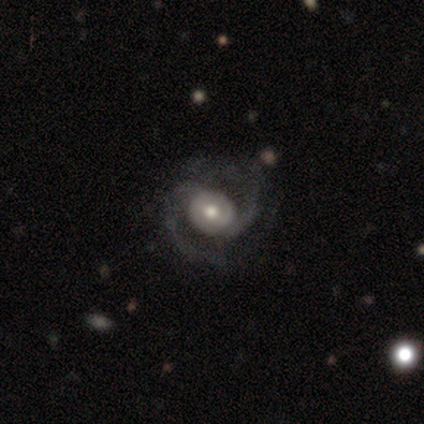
Smooth or featured?
  - featured or disk: 100% *
  - smooth: 0%
  - star or artifact: 0%
Edge-on disk?
  - no: 100% *
  - yes: 0%
Bar?
  - strong: 50% * (tied)
  - no: 50% * (tied)
  - weak: 0%
Spiral arms?
  - yes: 75% *
  - no: 25%
Spiral winding?
  - medium: 100% *
  - tight: 0%
  - loose: 0%
Spiral arm count?
  - 2: 100% *
  - 1: 0%
  - 3: 0%
  - 4: 0%
  - more than 4: 0%
  - can't tell: 0%
Bulge size?
  - moderate: 50% *
  - large: 25%
  - small: 25%
  - dominant: 0%
  - none: 0%
Merging?
  - none: 100% *
  - minor disturbance: 0%
  - major disturbance: 0%
  - merger: 0%